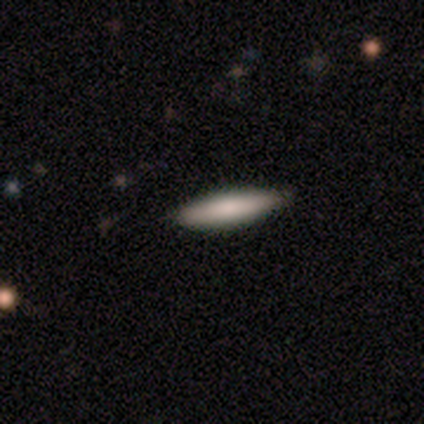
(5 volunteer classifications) smooth-or-featured: smooth: 60% | featured or disk: 20% | star or artifact: 20%
  how-rounded: cigar-shaped: 100% | round: 0% | in between: 0%
  merging: none: 100% | minor disturbance: 0% | major disturbance: 0% | merger: 0%